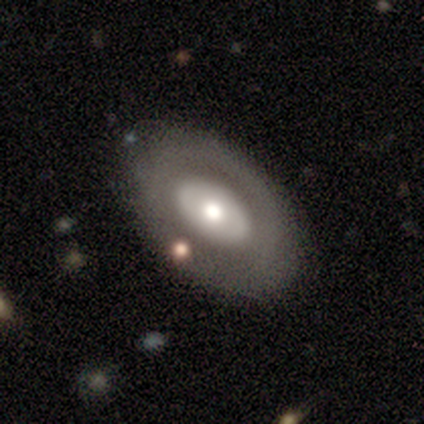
smooth-or-featured: featured or disk: 57% | smooth: 40% | star or artifact: 2%
  disk-edge-on: no: 91% | yes: 9%
    bar: no: 95% | strong: 5% | weak: 0%
    has-spiral-arms: no: 90% | yes: 10%
    bulge-size: moderate: 67% | large: 29% | small: 5% | dominant: 0% | none: 0%
  merging: none: 69% | minor disturbance: 26% | major disturbance: 5% | merger: 0%